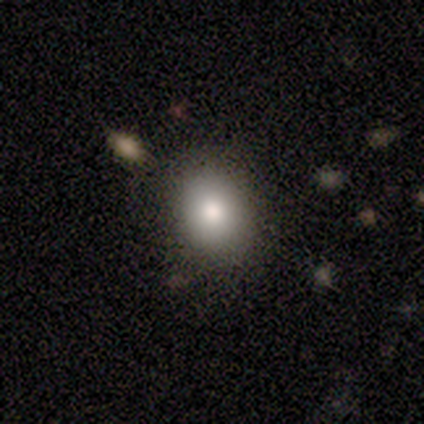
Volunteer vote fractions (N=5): Smooth or featured: smooth — 100%
How rounded: in between — 60% (round — 40%)
Merging: none — 80% (minor disturbance — 20%)